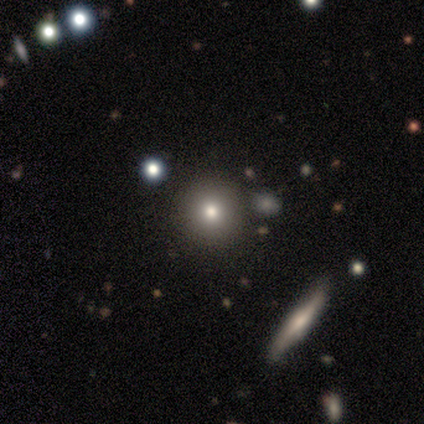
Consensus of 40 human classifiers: Smooth or featured? smooth (72%)
How rounded? round (93%)
Merging? none (82%)